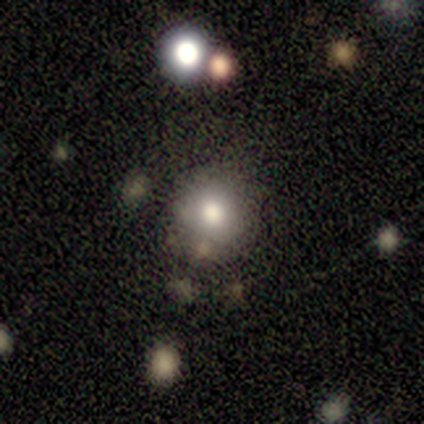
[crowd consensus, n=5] This appears to be a smooth galaxy with no disk features (60%) that is round (67%). Merging: none (100%).